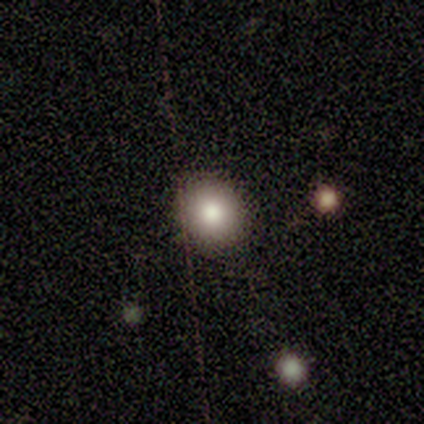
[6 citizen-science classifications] Smooth or featured: smooth — 100%
How rounded: round — 100%
Merging: none — 67% (minor disturbance — 33%)